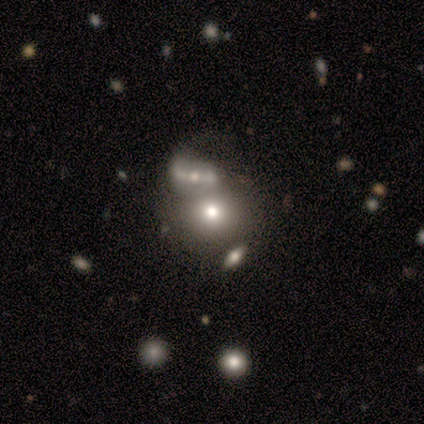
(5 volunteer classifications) smooth 80%, featured or disk 20%, star or artifact 0%. Down the decision tree: how rounded — round (50%, tied with in between); merging — none (60%).